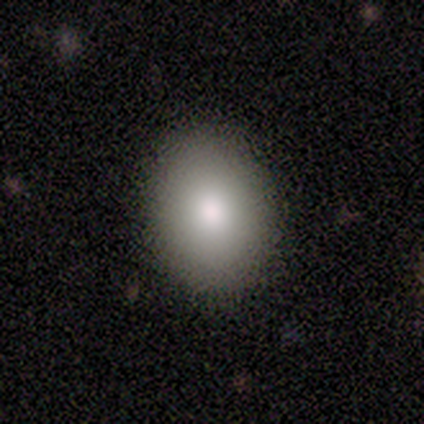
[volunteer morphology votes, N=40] Smooth or featured?
  - smooth: 90% *
  - featured or disk: 10%
  - star or artifact: 0%
How rounded?
  - round: 61% *
  - in between: 39%
  - cigar-shaped: 0%
Merging?
  - none: 90% *
  - minor disturbance: 8%
  - merger: 2%
  - major disturbance: 0%